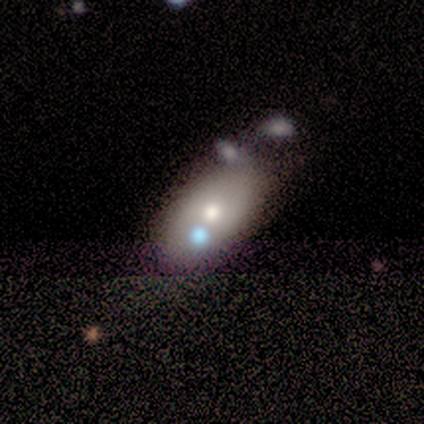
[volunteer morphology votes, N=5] Volunteers were most divided on "smooth or featured" (2-way tie): smooth: 40%, featured or disk: 40%, star or artifact: 20%; "merging" (2-way tie): none: 50%, merger: 50%, minor disturbance: 0%, major disturbance: 0%. More confident: how rounded — in between (100%).